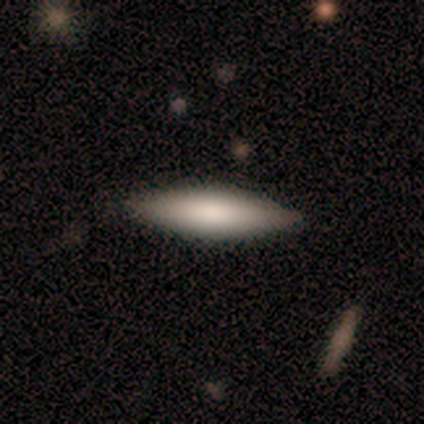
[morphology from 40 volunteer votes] Smooth or featured? smooth (70%)
How rounded? cigar-shaped (75%)
Merging? none (78%)